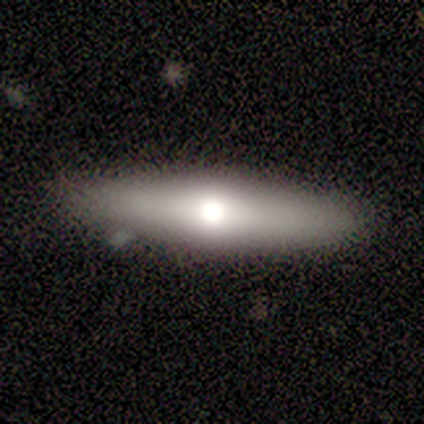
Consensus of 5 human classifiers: Volunteers were most divided on "smooth or featured": smooth: 60%, featured or disk: 40%, star or artifact: 0%. More confident: how rounded — cigar-shaped (100%); merging — none (100%).